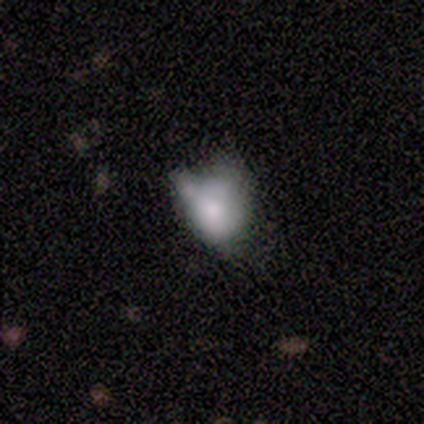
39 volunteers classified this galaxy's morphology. smooth-or-featured: smooth: 67% | featured or disk: 21% | star or artifact: 13%
  how-rounded: in between: 73% | round: 27% | cigar-shaped: 0%
  merging: minor disturbance: 41% | none: 29% | major disturbance: 21% | merger: 9%